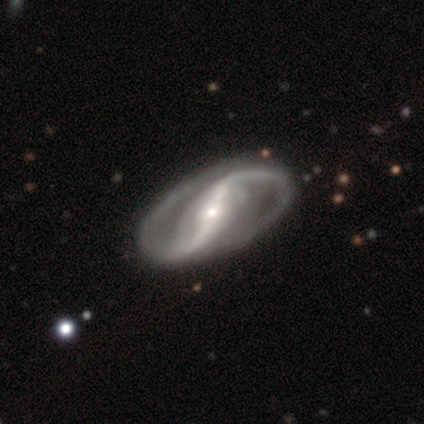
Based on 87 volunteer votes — Smooth or featured: featured or disk — 97% (star or artifact — 2%)
Edge-on disk: no — 94% (yes — 6%)
Bar: strong — 70% (weak — 20%)
Spiral arms: yes — 99% (no — 1%)
Spiral winding: loose — 56% (medium — 32%)
Spiral arm count: 2 — 96% (can't tell — 3%)
Bulge size: small — 62% (moderate — 27%)
Merging: none — 94% (major disturbance — 4%)